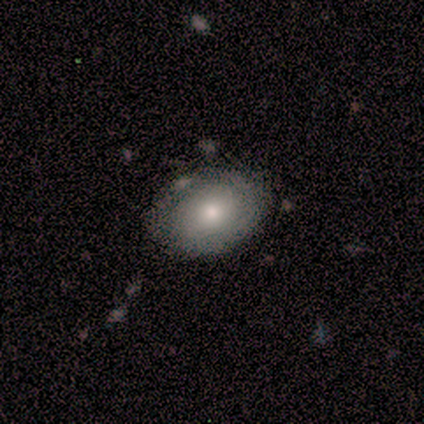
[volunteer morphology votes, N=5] Q: Smooth or featured?
A: smooth (60%); runner-up: featured or disk (20%)
Q: How rounded?
A: in between (100%)
Q: Merging?
A: none (100%)